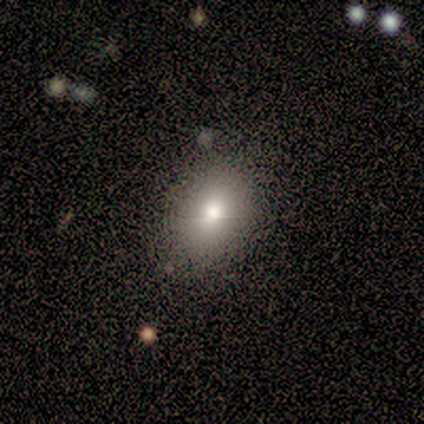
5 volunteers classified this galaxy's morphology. Smooth or featured: smooth — 100%
How rounded: in between — 80% (round — 20%)
Merging: none — 100%